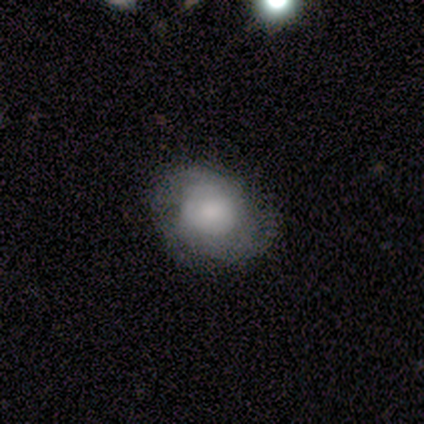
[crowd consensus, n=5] A smooth galaxy with no disk features (80%) that is round (100%). Merging: none (75%).